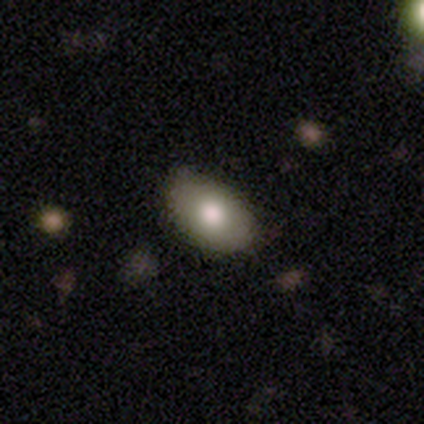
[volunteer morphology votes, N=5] Smooth or featured: smooth — 80% (featured or disk — 20%)
How rounded: in between — 100%
Merging: none — 100%